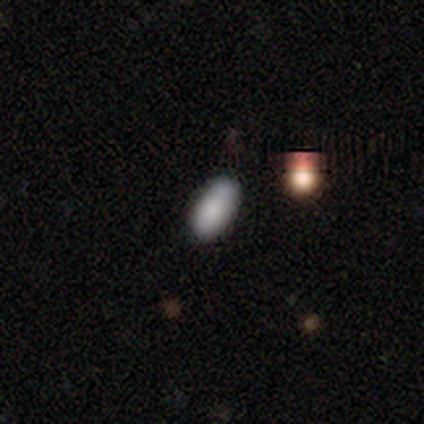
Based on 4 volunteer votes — smooth 100%, featured or disk 0%, star or artifact 0%. Down the decision tree: how rounded — in between (100%); merging — none (75%).